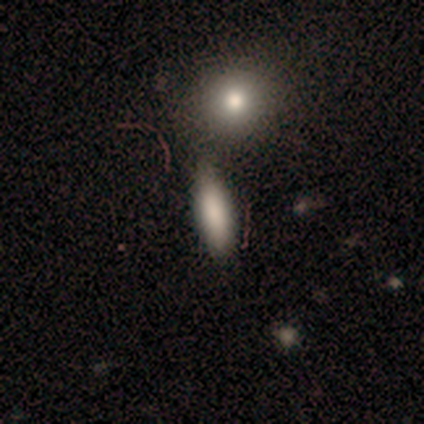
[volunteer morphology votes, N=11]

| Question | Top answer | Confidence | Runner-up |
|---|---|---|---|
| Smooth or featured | smooth | 91% | featured or disk (9%) |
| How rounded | in between | 60% | cigar-shaped (40%) |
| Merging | none | 73% | minor disturbance (18%) |